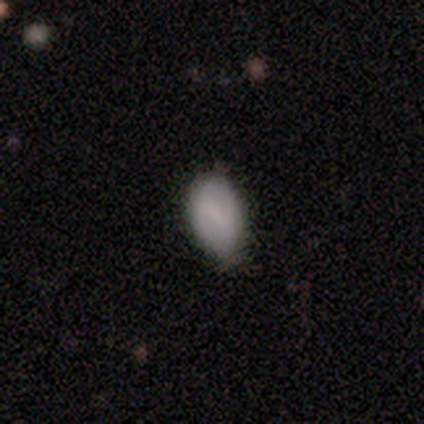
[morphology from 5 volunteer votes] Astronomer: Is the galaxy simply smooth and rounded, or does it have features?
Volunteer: smooth — 100%.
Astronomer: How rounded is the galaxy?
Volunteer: in between — 100%.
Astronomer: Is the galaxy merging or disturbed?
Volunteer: none — 80%.